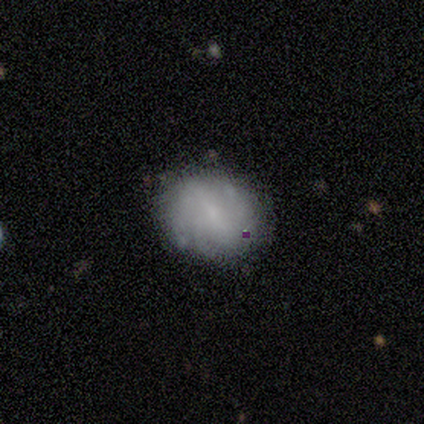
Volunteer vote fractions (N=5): Smooth or featured?
  - smooth: 60% *
  - featured or disk: 40%
  - star or artifact: 0%
How rounded?
  - in between: 67% *
  - round: 33%
  - cigar-shaped: 0%
Merging?
  - none: 60% *
  - minor disturbance: 40%
  - major disturbance: 0%
  - merger: 0%